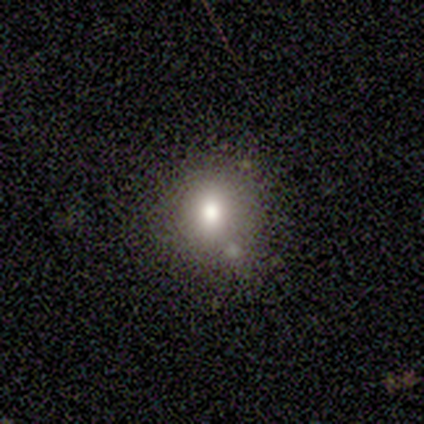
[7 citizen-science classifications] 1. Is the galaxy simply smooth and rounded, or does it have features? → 57% smooth, 29% star or artifact, 14% featured or disk.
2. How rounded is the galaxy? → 50% round (tied), 50% in between (tied), 0% cigar-shaped.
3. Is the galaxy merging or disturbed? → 80% none, 20% minor disturbance, 0% major disturbance, 0% merger.